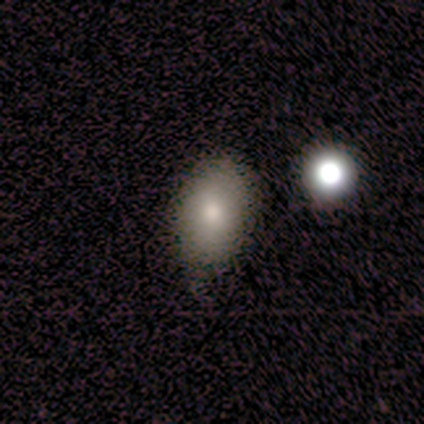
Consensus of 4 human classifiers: smooth-or-featured: smooth: 75% | star or artifact: 25% | featured or disk: 0%
  how-rounded: in between: 100% | round: 0% | cigar-shaped: 0%
  merging: none: 100% | minor disturbance: 0% | major disturbance: 0% | merger: 0%